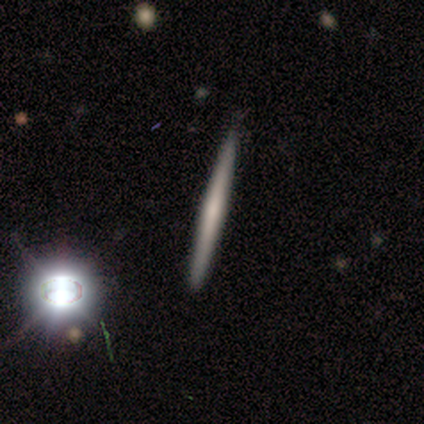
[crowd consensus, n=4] Volunteers were most divided on "edge-on bulge" (2-way tie): none: 50%, rounded: 50%, boxy: 0%. More confident: edge-on disk — yes (100%); merging — none (100%); smooth or featured — featured or disk (50%).